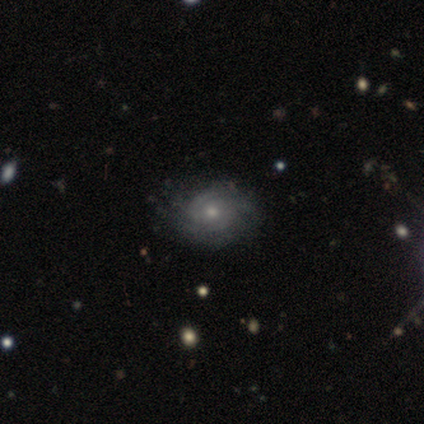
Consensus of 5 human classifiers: Smooth or featured: featured or disk — 80% (smooth — 20%)
Edge-on disk: no — 100%
Bar: no — 100%
Spiral arms: yes — 100%
Spiral winding: tight — 50% (medium — 25%)
Spiral arm count: 2 — 50% (3 — 25%)
Bulge size: small — 75% (moderate — 25%)
Merging: minor disturbance — 80% (none — 20%)